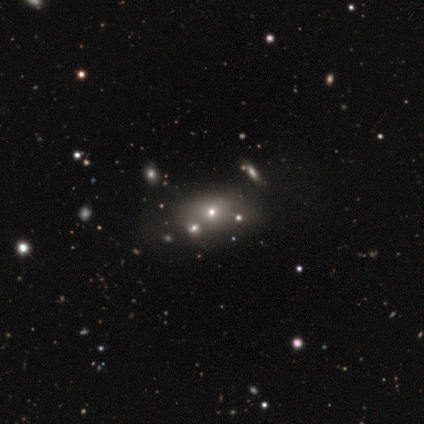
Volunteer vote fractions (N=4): Volunteers were most divided on "smooth or featured" (2-way tie): smooth: 50%, star or artifact: 50%, featured or disk: 0%; "merging" (2-way tie): none: 50%, merger: 50%, minor disturbance: 0%, major disturbance: 0%. More confident: how rounded — in between (100%).